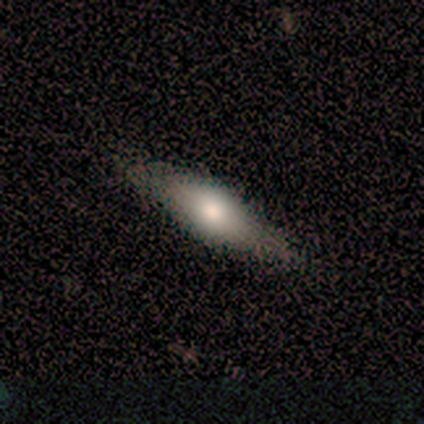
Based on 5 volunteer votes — smooth_or_featured: smooth (p=0.60) [alt: featured or disk p=0.40]
how_rounded: in between (p=0.67) [alt: cigar-shaped p=0.33]
merging: none (p=0.60) [alt: minor disturbance p=0.40]